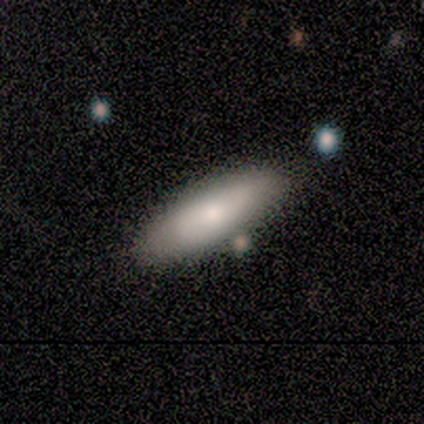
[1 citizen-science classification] Q: Smooth or featured?
A: smooth (100%)
Q: How rounded?
A: cigar-shaped (100%)
Q: Merging?
A: minor disturbance (100%)